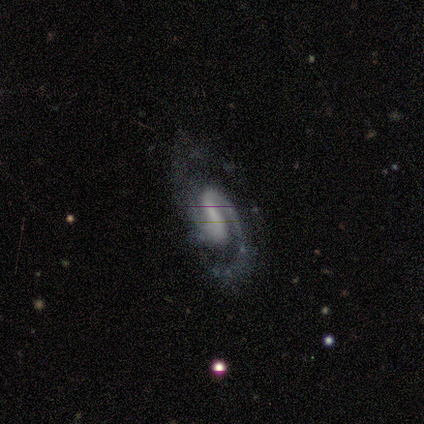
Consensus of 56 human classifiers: Volunteers were most divided on "bar": weak: 50%, strong: 40%, no: 10%. More confident: edge-on disk — no (100%); spiral arms — yes (100%); spiral arm count — 2 (96%); smooth or featured — featured or disk (93%); spiral winding — medium (71%); merging — none (66%); bulge size — none (50%).